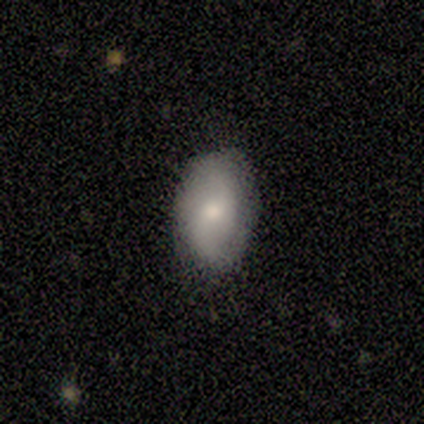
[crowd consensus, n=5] This is likely a smooth galaxy (60%). How rounded: clearly in between (100%). Merging: likely none (75%).